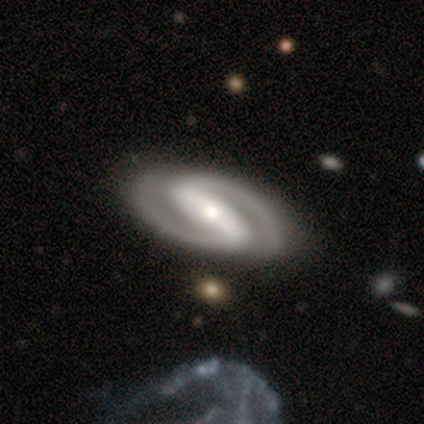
Q: Smooth or featured?
A: featured or disk (93%); runner-up: smooth (7%)
Q: Edge-on disk?
A: no (89%); runner-up: yes (11%)
Q: Bar?
A: strong (92%); runner-up: weak (8%)
Q: Spiral arms?
A: yes (96%); runner-up: no (4%)
Q: Spiral winding?
A: medium (42%); runner-up: tight (38%)
Q: Spiral arm count?
A: 2 (100%)
Q: Bulge size?
A: moderate (48%); runner-up: small (32%)
Q: Merging?
A: none (33%); runner-up: minor disturbance (10%)